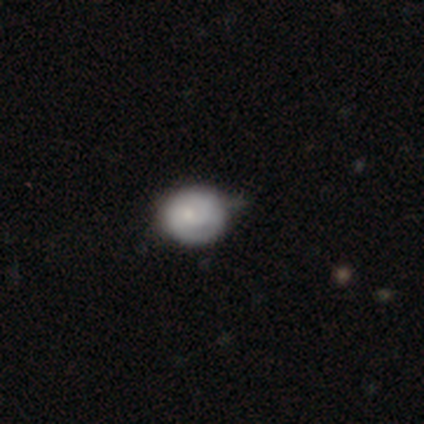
A smooth galaxy with no disk features (80%) that is round (100%). Merging: minor disturbance (60%).